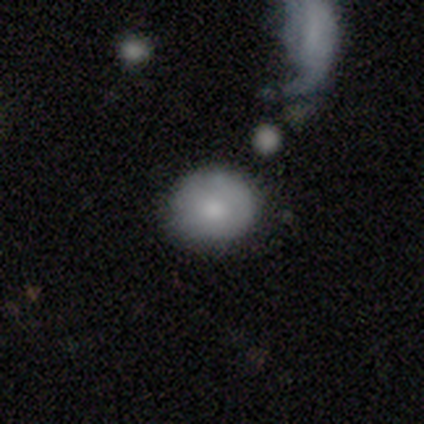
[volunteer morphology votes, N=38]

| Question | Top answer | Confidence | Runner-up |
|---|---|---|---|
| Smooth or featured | smooth | 74% | featured or disk (18%) |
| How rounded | round | 82% | in between (18%) |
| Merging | none | 77% | minor disturbance (11%) |